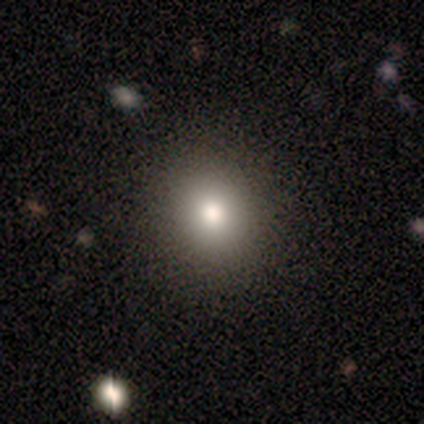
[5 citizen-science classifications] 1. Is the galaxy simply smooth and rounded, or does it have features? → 80% smooth, 20% star or artifact, 0% featured or disk.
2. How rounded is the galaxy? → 75% round, 25% in between, 0% cigar-shaped.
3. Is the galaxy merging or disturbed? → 75% none, 25% minor disturbance, 0% major disturbance, 0% merger.